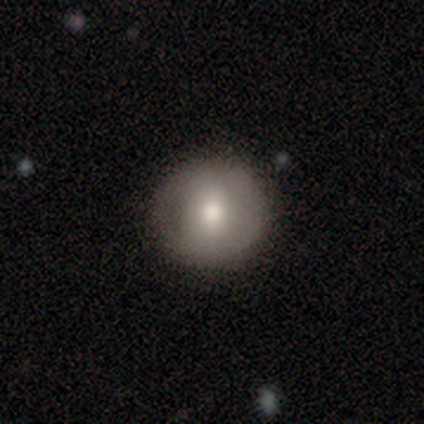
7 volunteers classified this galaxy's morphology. Smooth or featured: smooth — 100%
How rounded: round — 100%
Merging: none — 86% (minor disturbance — 14%)